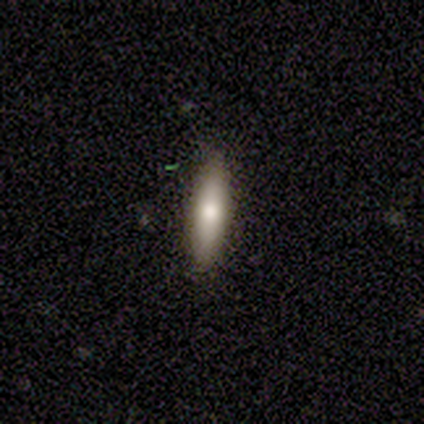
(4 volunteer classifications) smooth_or_featured: featured or disk (p=0.50) [alt: smooth p=0.25]
disk_edge_on: yes (p=1.00)
edge_on_bulge: rounded (p=1.00)
merging: none (p=0.67) [alt: minor disturbance p=0.33]